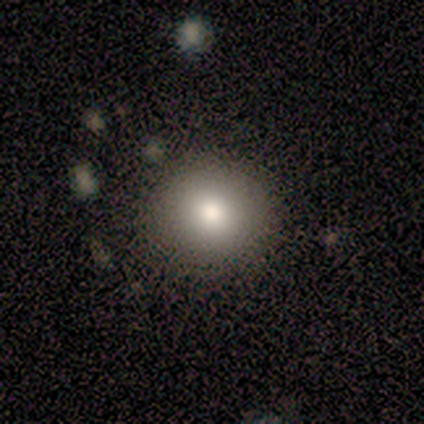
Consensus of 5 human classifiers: Overall: smooth (80%). How rounded: round (75%). Merging: none (75%).